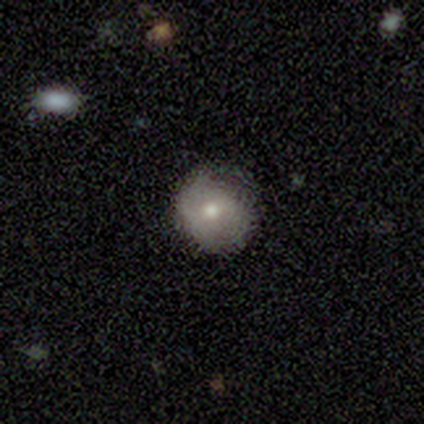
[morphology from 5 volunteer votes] Smooth or featured?
  - featured or disk: 60% *
  - smooth: 40%
  - star or artifact: 0%
Edge-on disk?
  - no: 100% *
  - yes: 0%
Bar?
  - weak: 67% *
  - no: 33%
  - strong: 0%
Spiral arms?
  - no: 67% *
  - yes: 33%
Bulge size?
  - moderate: 100% *
  - dominant: 0%
  - large: 0%
  - small: 0%
  - none: 0%
Merging?
  - none: 80% *
  - major disturbance: 20%
  - minor disturbance: 0%
  - merger: 0%